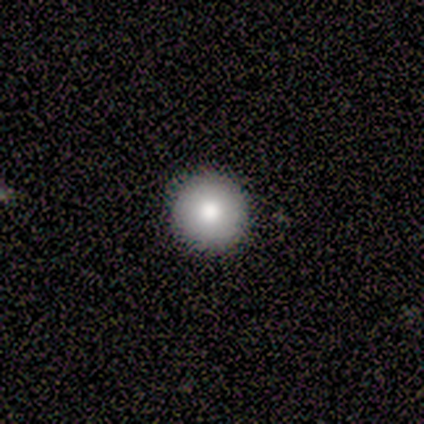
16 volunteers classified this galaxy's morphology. A smooth galaxy with no disk features (75%) that is round (100%).

Vote fractions:
- Smooth or featured? smooth: 75% / featured or disk: 12% / star or artifact: 12%
- How rounded? round: 100% / in between: 0% / cigar-shaped: 0%
- Merging? none: 93% / major disturbance: 7% / minor disturbance: 0% / merger: 0%